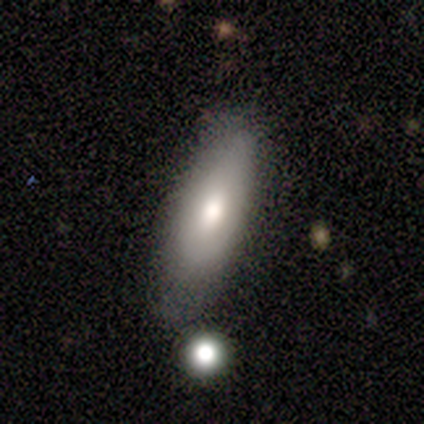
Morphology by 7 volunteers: Overall: smooth (86%). How rounded: in between (83%). Merging: none (86%).